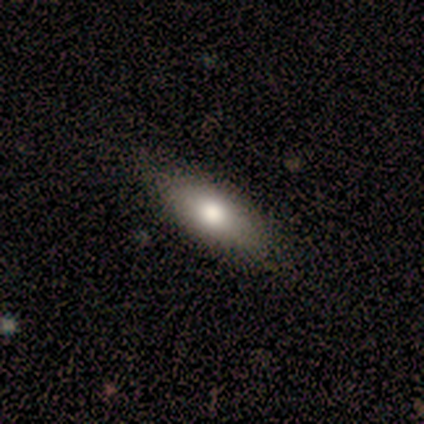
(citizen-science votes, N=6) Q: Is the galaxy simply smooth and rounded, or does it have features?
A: smooth — 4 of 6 (67%).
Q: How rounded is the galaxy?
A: in between — 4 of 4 (100%).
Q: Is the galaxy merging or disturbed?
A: none — 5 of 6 (83%).